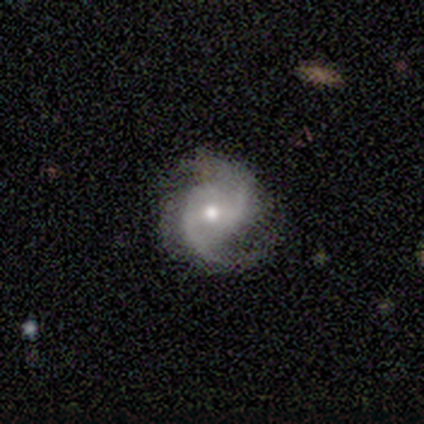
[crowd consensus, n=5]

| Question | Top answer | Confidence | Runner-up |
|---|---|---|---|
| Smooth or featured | featured or disk | 80% | smooth (20%) |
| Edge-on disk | no | 100% | — |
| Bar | no | 50% | strong (25%) |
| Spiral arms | yes | 100% | — |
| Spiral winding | medium | 50% | tied: loose (50%) |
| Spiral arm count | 2 | 75% | can't tell (25%) |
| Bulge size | moderate | 75% | small (25%) |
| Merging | none | 100% | — |